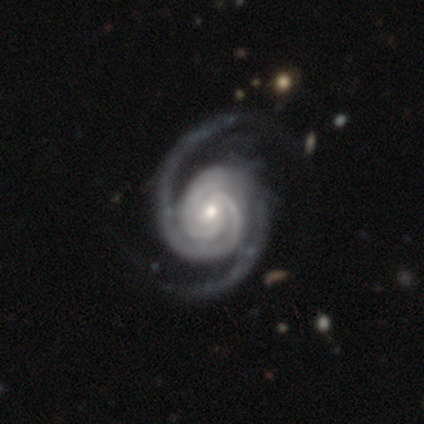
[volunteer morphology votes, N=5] A featured or disk galaxy (100%) with a strong bar (40%, tied with weak), 3 (60%) tight (60%) spiral arms (100%) and a moderate central bulge (60%).

Vote fractions:
- Smooth or featured? featured or disk: 100% / smooth: 0% / star or artifact: 0%
- Edge-on disk? no: 100% / yes: 0%
- Bar? strong: 40% (tied) / weak: 40% (tied) / no: 20%
- Spiral arms? yes: 100% / no: 0%
- Spiral winding? tight: 60% / medium: 40% / loose: 0%
- Spiral arm count? 3: 60% / 2: 40% / 1: 0% / 4: 0% / more than 4: 0% / can't tell: 0%
- Bulge size? moderate: 60% / small: 40% / dominant: 0% / large: 0% / none: 0%
- Merging? none: 60% / major disturbance: 40% / minor disturbance: 0% / merger: 0%